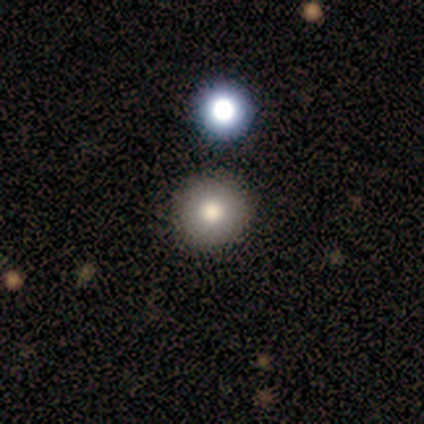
smooth_or_featured: smooth (p=0.75) [alt: star or artifact p=0.25]
how_rounded: round (p=0.67) [alt: in between p=0.33]
merging: none (p=0.67) [alt: minor disturbance p=0.33]